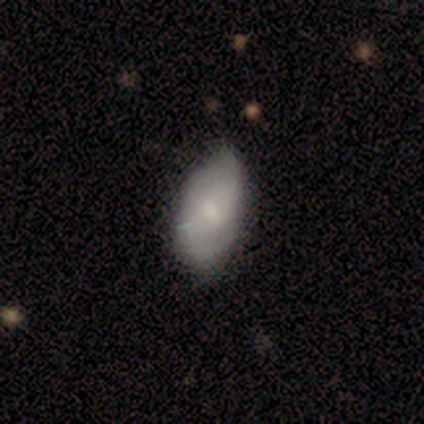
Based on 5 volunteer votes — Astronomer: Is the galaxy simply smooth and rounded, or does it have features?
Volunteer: featured or disk — 60% (runner-up: smooth, 40%).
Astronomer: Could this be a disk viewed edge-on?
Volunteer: no — 67%.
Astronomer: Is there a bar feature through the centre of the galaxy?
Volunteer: no — 100%.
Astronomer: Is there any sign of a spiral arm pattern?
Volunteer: yes — 50%, tied with no at 50%.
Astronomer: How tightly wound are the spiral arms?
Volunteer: tight — 100%.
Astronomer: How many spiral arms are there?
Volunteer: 2 — 100%.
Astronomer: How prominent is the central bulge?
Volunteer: moderate — 50%, tied with small at 50%.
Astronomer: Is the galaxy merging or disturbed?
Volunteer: minor disturbance — 80%.